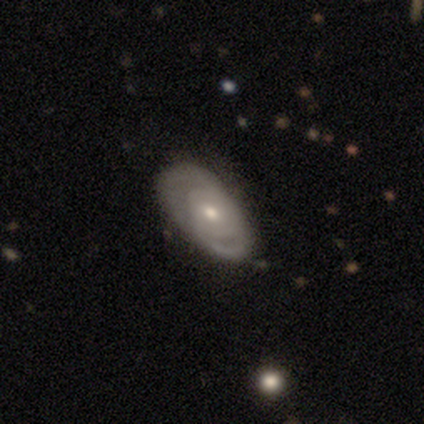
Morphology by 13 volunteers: A featured or disk galaxy (85%) with no bar (64%), 2 (67%) tight (89%) spiral arms (82%) and a moderate central bulge (64%).

Vote fractions:
- Smooth or featured? featured or disk: 85% / smooth: 15% / star or artifact: 0%
- Edge-on disk? no: 100% / yes: 0%
- Bar? no: 64% / weak: 36% / strong: 0%
- Spiral arms? yes: 82% / no: 18%
- Spiral winding? tight: 89% / medium: 11% / loose: 0%
- Spiral arm count? 2: 67% / can't tell: 22% / 1: 11% / 3: 0% / 4: 0% / more than 4: 0%
- Bulge size? moderate: 64% / small: 36% / dominant: 0% / large: 0% / none: 0%
- Merging? none: 46% / minor disturbance: 31% / major disturbance: 15% / merger: 8%